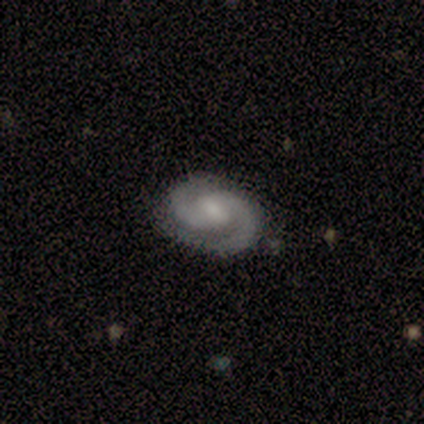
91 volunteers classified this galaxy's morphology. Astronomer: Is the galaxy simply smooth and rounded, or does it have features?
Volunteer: featured or disk — 90%.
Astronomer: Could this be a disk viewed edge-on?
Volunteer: no — 98%.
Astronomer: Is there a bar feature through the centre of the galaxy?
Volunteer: weak — 55% (runner-up: no, 32%).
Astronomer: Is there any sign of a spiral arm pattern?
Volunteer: yes — 98%.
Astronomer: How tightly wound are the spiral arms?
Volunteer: medium — 45% (runner-up: tight, 42%).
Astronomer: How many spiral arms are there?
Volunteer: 2 — 94%.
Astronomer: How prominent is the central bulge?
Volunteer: moderate — 46% (runner-up: small, 39%).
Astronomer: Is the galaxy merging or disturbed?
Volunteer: none — 88%.